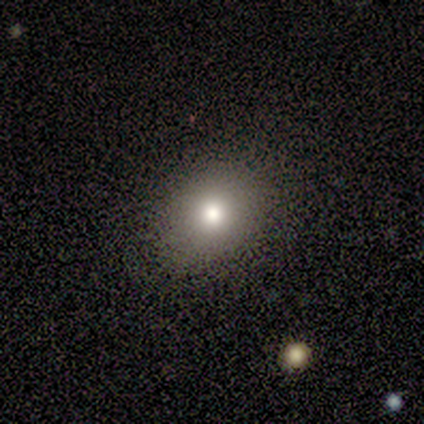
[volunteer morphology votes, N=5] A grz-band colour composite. It shows a smooth galaxy with no disk features (60%) that is round (67%). Merging: none (100%).